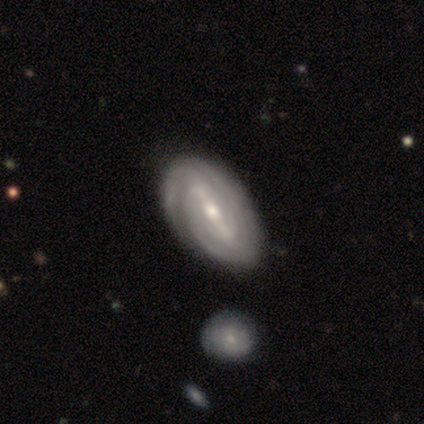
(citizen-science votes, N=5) Smooth or featured? 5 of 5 (100%) said featured or disk. Edge-on disk? 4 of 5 (80%) said no. Bar? 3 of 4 (75%) said strong. Spiral arms? 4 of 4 (100%) said yes. Spiral winding? 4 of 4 (100%) said tight. Spiral arm count? 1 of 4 (25%, tied with 2, 3 and can't tell) said 1. Bulge size? 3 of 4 (75%) said moderate. Merging? 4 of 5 (80%) said none.